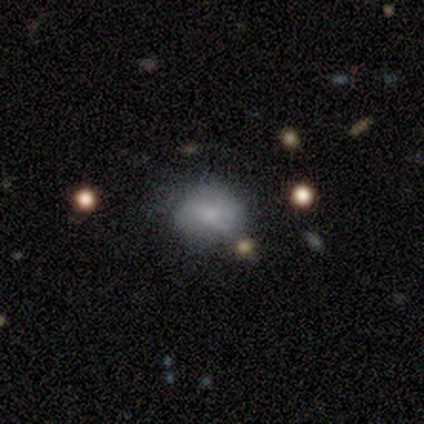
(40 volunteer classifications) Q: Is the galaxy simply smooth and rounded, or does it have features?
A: smooth — 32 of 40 (80%).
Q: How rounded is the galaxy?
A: round — 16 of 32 (50%, tied with in between).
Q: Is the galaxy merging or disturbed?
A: none — 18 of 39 (46%).